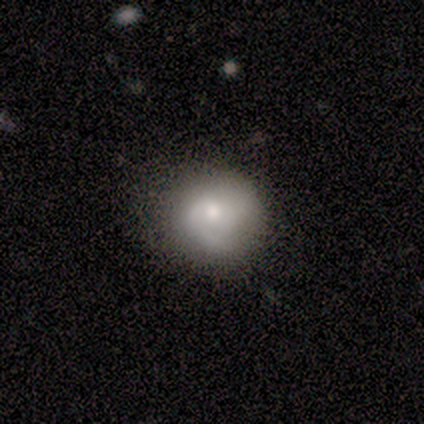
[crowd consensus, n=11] Volunteers were most divided on "smooth or featured": smooth: 64%, featured or disk: 36%, star or artifact: 0%. More confident: how rounded — round (86%); merging — none (73%).